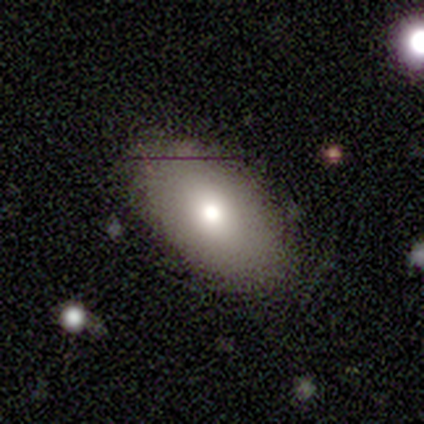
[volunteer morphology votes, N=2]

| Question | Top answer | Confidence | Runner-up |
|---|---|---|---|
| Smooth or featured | smooth | 50% | tied: featured or disk (50%) |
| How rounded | in between | 100% | — |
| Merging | none | 50% | tied: merger (50%) |